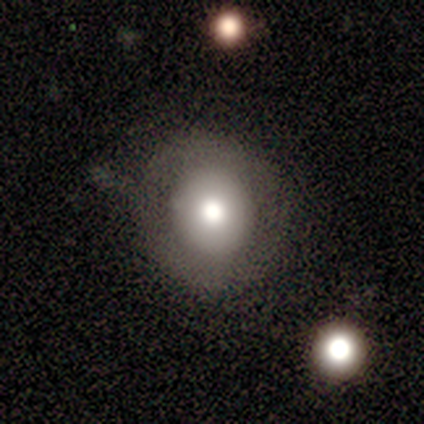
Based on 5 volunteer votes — This appears to be a smooth galaxy with no disk features (80%) that is round (100%). Merging: none (100%).